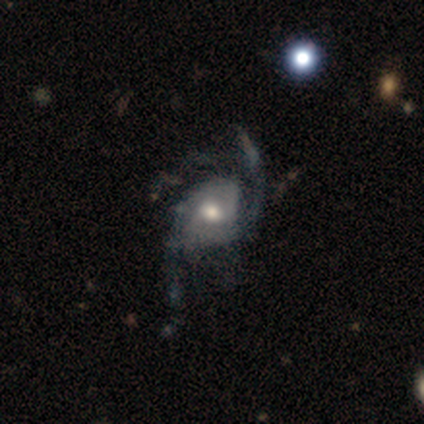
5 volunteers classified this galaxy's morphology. Volunteers were most divided on "bar": no: 60%, weak: 40%, strong: 0%. Remaining: smooth or featured — featured or disk (100%); edge-on disk — no (100%); spiral arms — yes (100%); spiral arm count — 2 (80%); spiral winding — loose (60%); bulge size — moderate (60%); merging — none (40%).